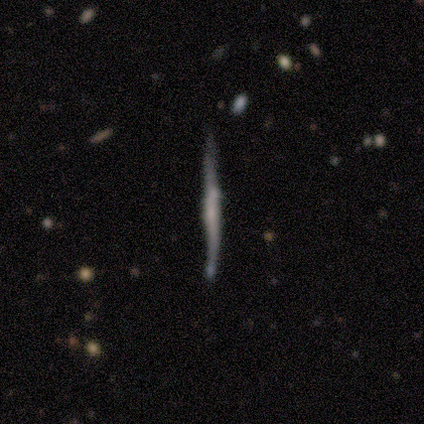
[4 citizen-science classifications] Overall: smooth (75%). How rounded: cigar-shaped (100%). Merging: none (50%, tied with minor disturbance).